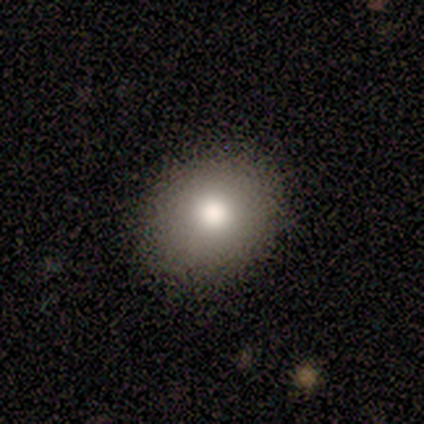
Smooth or featured: smooth — 100%
How rounded: round — 75% (in between — 25%)
Merging: none — 88% (minor disturbance — 12%)